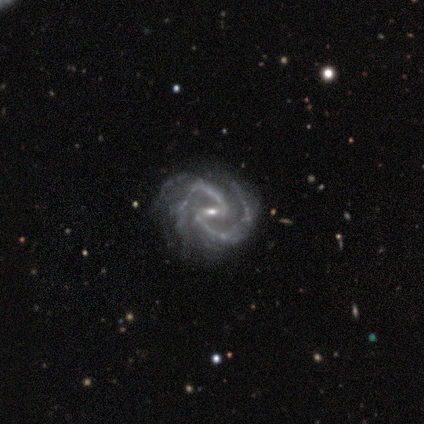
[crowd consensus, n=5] smooth_or_featured: featured or disk (p=1.00)
disk_edge_on: no (p=1.00)
bar: weak (p=0.60) [alt: strong p=0.40]
has_spiral_arms: yes (p=1.00)
spiral_winding: medium (p=0.80) [alt: loose p=0.20]
spiral_arm_count: 2 (p=1.00)
bulge_size: small (p=0.80) [alt: moderate p=0.20]
merging: none (p=0.80) [alt: minor disturbance p=0.20]